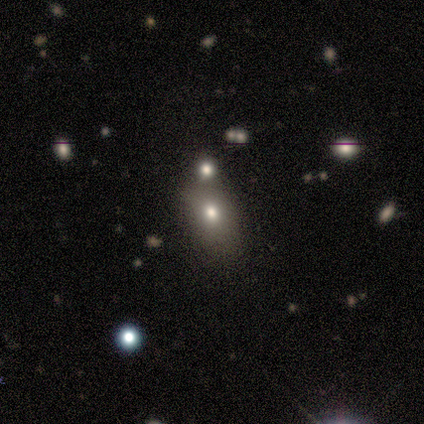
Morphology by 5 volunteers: Overall: smooth (60%; featured or disk 20%). How rounded: in between (67%; cigar-shaped 33%). Merging: none (50%; minor disturbance 25%).